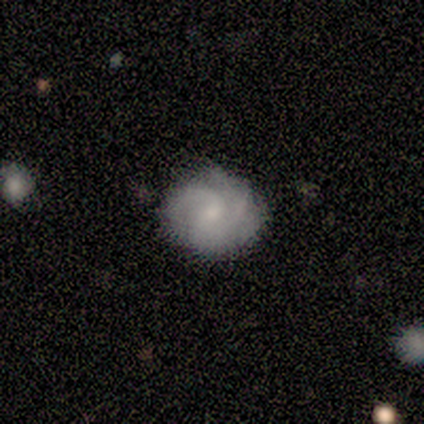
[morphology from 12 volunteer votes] A featured or disk galaxy (67%) with no bar (75%), 2 (57%) medium (57%) spiral arms (88%) and a small central bulge (62%).

Vote fractions:
- Smooth or featured? featured or disk: 67% / smooth: 25% / star or artifact: 8%
- Edge-on disk? no: 100% / yes: 0%
- Bar? no: 75% / weak: 25% / strong: 0%
- Spiral arms? yes: 88% / no: 12%
- Spiral winding? medium: 57% / tight: 29% / loose: 14%
- Spiral arm count? 2: 57% / 3: 29% / can't tell: 14% / 1: 0% / 4: 0% / more than 4: 0%
- Bulge size? small: 62% / moderate: 38% / dominant: 0% / large: 0% / none: 0%
- Merging? none: 82% / minor disturbance: 18% / major disturbance: 0% / merger: 0%